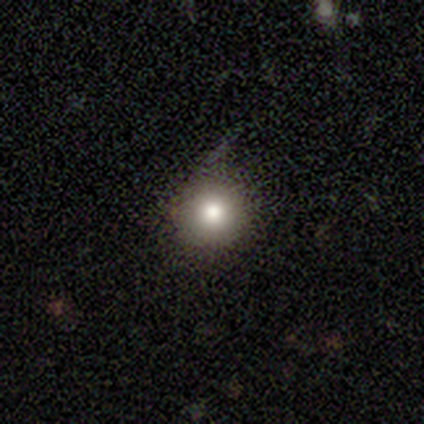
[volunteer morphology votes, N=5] smooth-or-featured: smooth: 80% | star or artifact: 20% | featured or disk: 0%
  how-rounded: round: 100% | in between: 0% | cigar-shaped: 0%
  merging: minor disturbance: 75% | none: 25% | major disturbance: 0% | merger: 0%